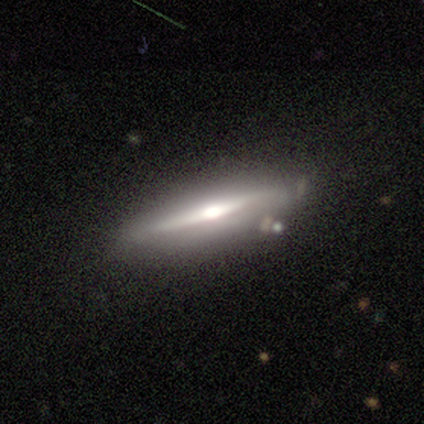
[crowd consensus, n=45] Smooth or featured: featured or disk — 80% (smooth — 20%)
Edge-on disk: yes — 100%
Edge-on bulge: rounded — 86% (none — 8%)
Merging: none — 73% (minor disturbance — 20%)